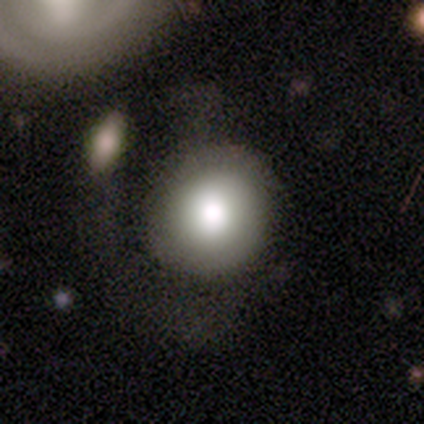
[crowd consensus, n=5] Smooth or featured? smooth (40%, tied with featured or disk)
How rounded? round (100%)
Merging? none (75%)